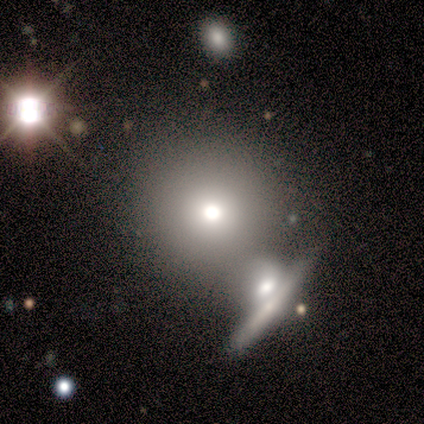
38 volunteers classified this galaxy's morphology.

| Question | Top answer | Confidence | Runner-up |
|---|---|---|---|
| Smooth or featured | smooth | 58% | featured or disk (26%) |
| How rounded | round | 95% | in between (5%) |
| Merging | none | 62% | merger (28%) |